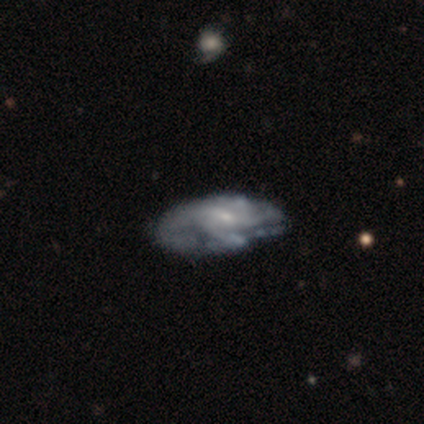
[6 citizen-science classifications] A featured or disk galaxy (83%) with a weak bar (50%, tied with no), medium (75%) spiral arms (100%) and a moderate central bulge (50%). Merging: minor disturbance (33%, tied with major disturbance).